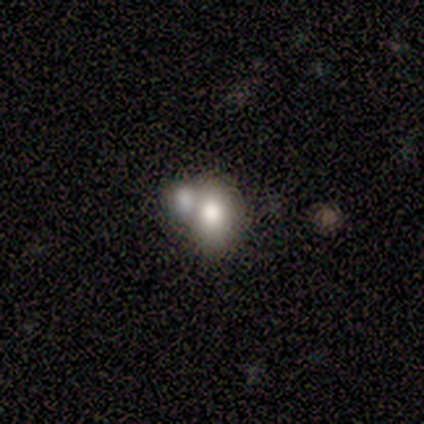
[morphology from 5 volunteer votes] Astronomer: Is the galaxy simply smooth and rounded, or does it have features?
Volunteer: smooth — 60%.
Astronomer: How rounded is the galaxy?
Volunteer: in between — 67%.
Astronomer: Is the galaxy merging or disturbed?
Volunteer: none — 50%.